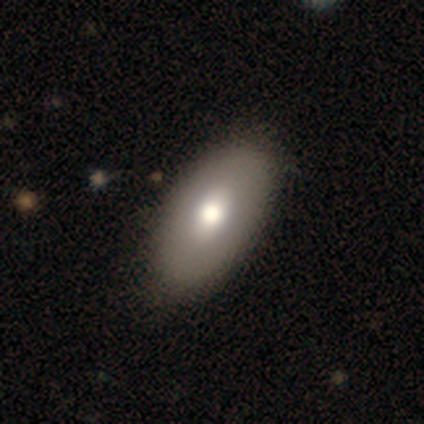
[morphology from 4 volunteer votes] Q: Smooth or featured?
A: smooth (50%); tied with: featured or disk (50%)
Q: How rounded?
A: in between (100%)
Q: Merging?
A: none (50%); tied with: minor disturbance (50%)